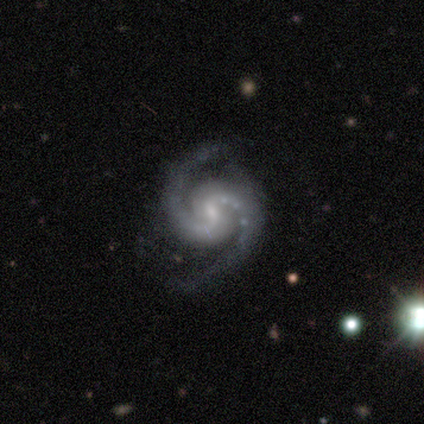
Morphology: type=featured or disk (100%); edge-on=no (80%); bar=weak (75%); spiral arms=yes (100%); winding=medium (75%); arm count=2 (100%); bulge=moderate (75%); merging=none (100%).